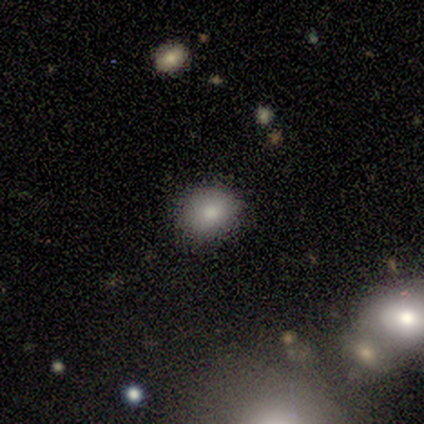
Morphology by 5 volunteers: This is clearly a smooth galaxy (100%). How rounded: likely round (60%). Merging: clearly none (100%).